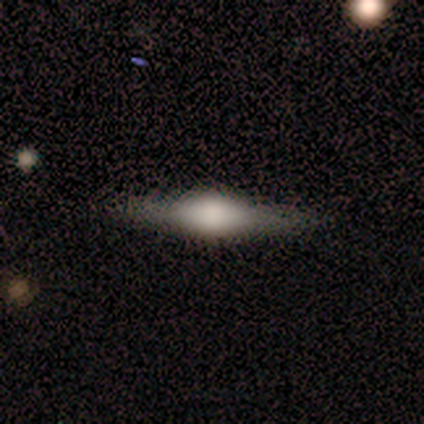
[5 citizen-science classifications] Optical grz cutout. It shows a featured or disk galaxy (80%) viewed edge-on (100%) with a rounded central bulge (75%). Merging: none (100%).